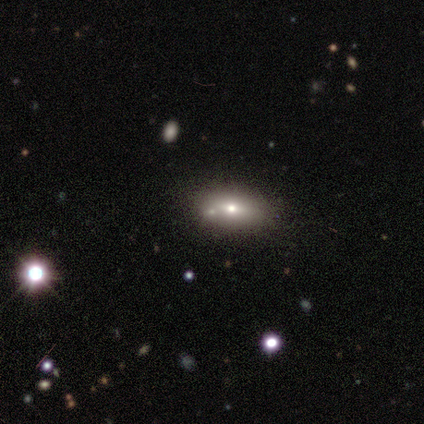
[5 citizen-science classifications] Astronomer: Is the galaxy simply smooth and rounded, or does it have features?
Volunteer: smooth — 40%, tied with featured or disk at 40%.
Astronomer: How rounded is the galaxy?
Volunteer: in between — 100%.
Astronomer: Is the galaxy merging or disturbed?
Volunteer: none — 100%.